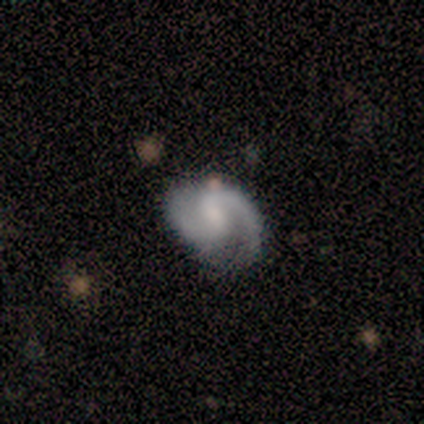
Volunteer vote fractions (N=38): This appears to be a featured or disk galaxy (82%) with a weak bar (48%), 2 (93%) medium (59%) spiral arms (94%) and a small central bulge (48%). Merging: none (80%).